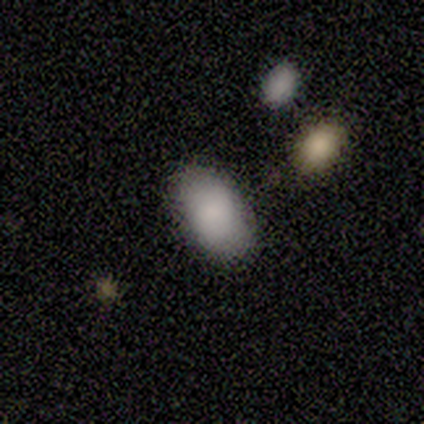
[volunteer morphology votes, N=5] Q: Smooth or featured?
A: smooth (80%); runner-up: star or artifact (20%)
Q: How rounded?
A: in between (100%)
Q: Merging?
A: none (100%)